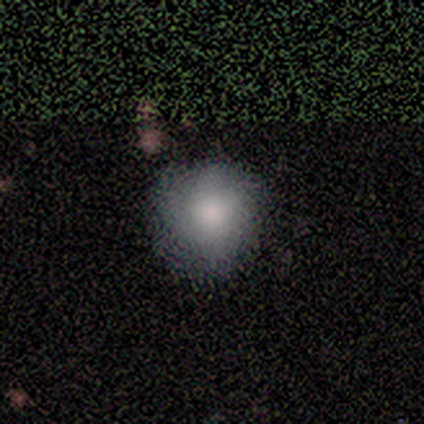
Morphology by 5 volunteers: Volunteers were most divided on "merging": none: 60%, minor disturbance: 40%, major disturbance: 0%, merger: 0%. More confident: smooth or featured — smooth (100%); how rounded — round (100%).